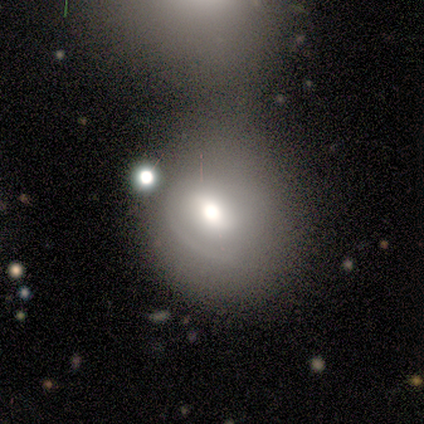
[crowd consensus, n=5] A smooth galaxy with no disk features (80%) that is round (50%, tied with in between).

Vote fractions:
- Smooth or featured? smooth: 80% / featured or disk: 20% / star or artifact: 0%
- How rounded? round: 50% (tied) / in between: 50% (tied) / cigar-shaped: 0%
- Merging? merger: 60% / none: 20% / minor disturbance: 20% / major disturbance: 0%